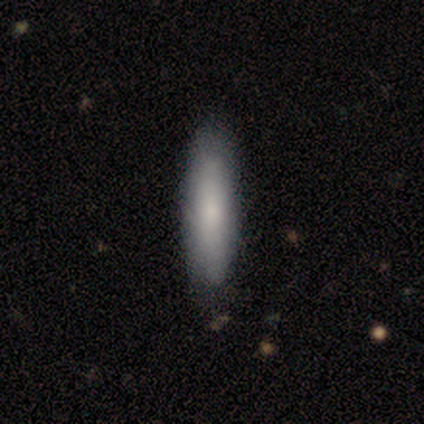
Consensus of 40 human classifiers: Overall: smooth (72%). How rounded: cigar-shaped (69%; in between 31%). Merging: none (54%; minor disturbance 15%).